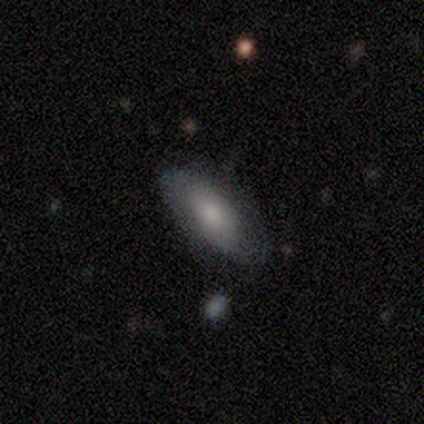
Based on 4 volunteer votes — This appears to be a smooth galaxy with no disk features (75%) that is in between round and cigar-shaped (100%). Merging: none (100%).